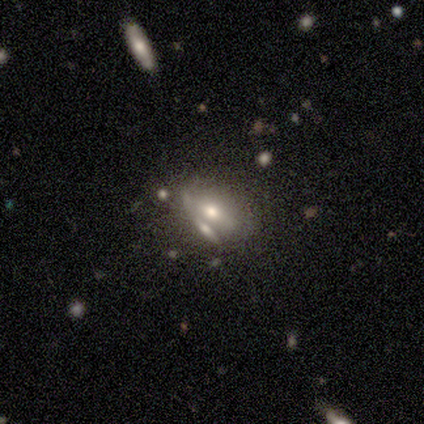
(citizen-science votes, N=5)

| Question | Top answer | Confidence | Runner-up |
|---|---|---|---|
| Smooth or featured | featured or disk | 80% | star or artifact (20%) |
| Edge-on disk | no | 75% | yes (25%) |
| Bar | no | 67% | weak (33%) |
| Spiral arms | no | 67% | yes (33%) |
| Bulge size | moderate | 67% | small (33%) |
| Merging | merger | 50% | none (25%) |